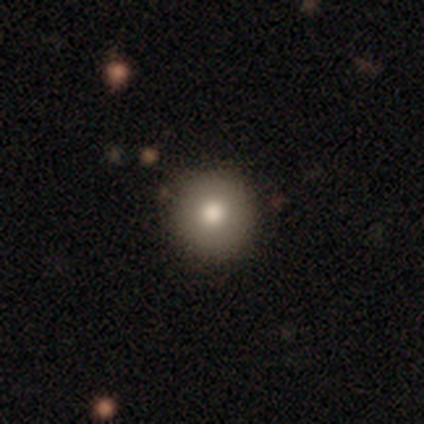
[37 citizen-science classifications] smooth 70%, featured or disk 19%, star or artifact 11%. Down the decision tree: how rounded — round (96%); merging — none (91%).